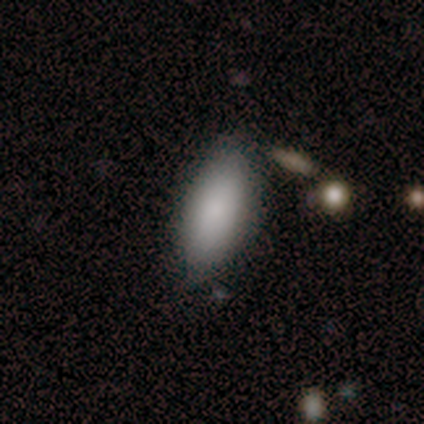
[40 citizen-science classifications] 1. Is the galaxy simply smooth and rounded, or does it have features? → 85% smooth, 8% featured or disk, 8% star or artifact.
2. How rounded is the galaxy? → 88% in between, 12% cigar-shaped, 0% round.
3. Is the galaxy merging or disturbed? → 68% none, 22% minor disturbance, 8% major disturbance, 3% merger.